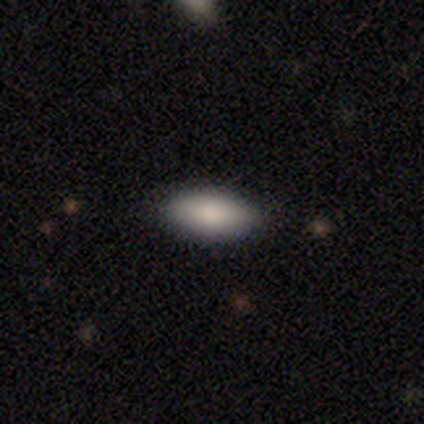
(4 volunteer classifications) Morphology: type=smooth (75%); roundness=in between (67%); merging=none (75%).